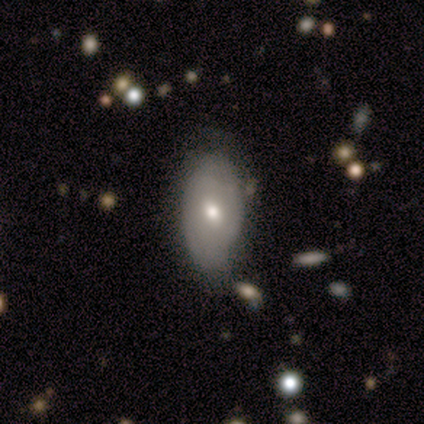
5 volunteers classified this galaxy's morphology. A smooth galaxy with no disk features (60%) that is in between round and cigar-shaped (67%).

Vote fractions:
- Smooth or featured? smooth: 60% / featured or disk: 40% / star or artifact: 0%
- How rounded? in between: 67% / round: 33% / cigar-shaped: 0%
- Merging? none: 60% / minor disturbance: 40% / major disturbance: 0% / merger: 0%